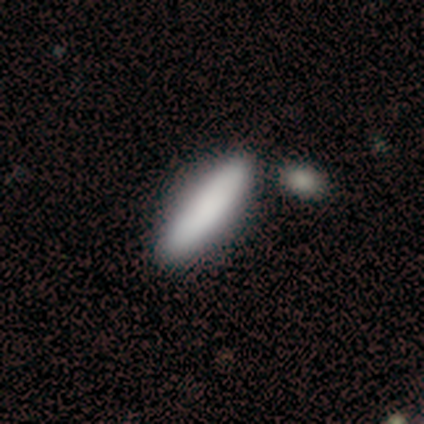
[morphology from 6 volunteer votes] Smooth or featured: smooth — 67% (featured or disk — 17%)
How rounded: in between — 50% (tied with cigar-shaped — 50%)
Merging: none — 100%